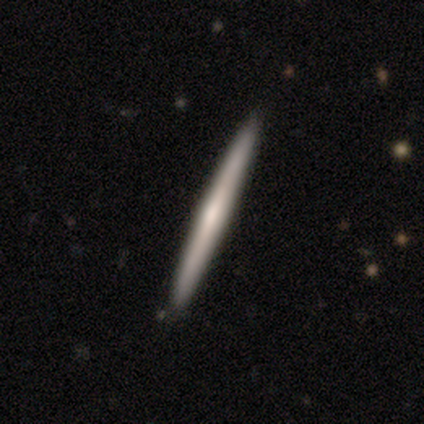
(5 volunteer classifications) This is likely a featured or disk galaxy (60%). It is clearly viewed edge-on (100%). Edge-on bulge: likely rounded (67%). Merging: clearly none (100%).